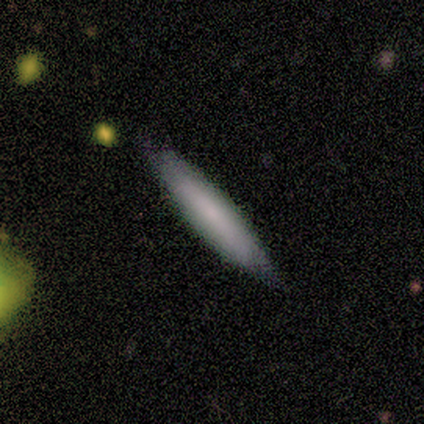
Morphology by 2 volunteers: Volunteers were most divided on "how rounded" (2-way tie): in between: 50%, cigar-shaped: 50%, round: 0%. More confident: smooth or featured — smooth (100%); merging — none (100%).